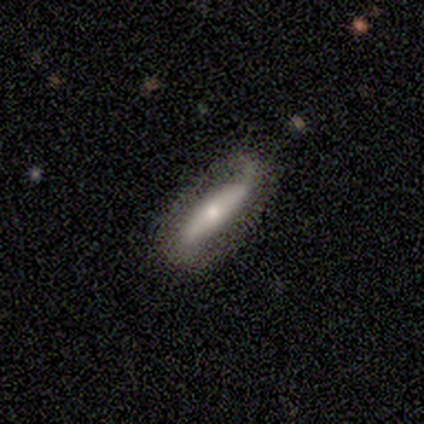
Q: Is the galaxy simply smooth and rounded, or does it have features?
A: featured or disk — 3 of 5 (60%).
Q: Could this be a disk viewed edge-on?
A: no — 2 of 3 (67%).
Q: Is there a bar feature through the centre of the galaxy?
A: strong — 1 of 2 (50%, tied with no).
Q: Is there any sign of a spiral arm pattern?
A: yes — 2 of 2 (100%).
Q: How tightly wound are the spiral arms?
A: loose — 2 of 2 (100%).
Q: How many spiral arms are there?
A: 1 — 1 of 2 (50%, tied with 2).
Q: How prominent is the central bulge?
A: small — 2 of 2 (100%).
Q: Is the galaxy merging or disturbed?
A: none — 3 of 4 (75%).